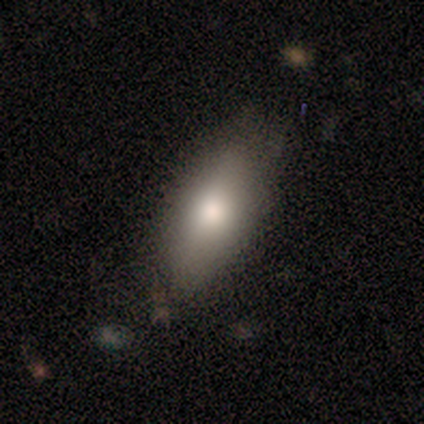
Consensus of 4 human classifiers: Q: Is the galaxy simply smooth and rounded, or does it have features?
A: smooth — 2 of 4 (50%, tied with featured or disk).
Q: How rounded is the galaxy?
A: in between — 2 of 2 (100%).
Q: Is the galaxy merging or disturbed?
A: none — 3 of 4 (75%).